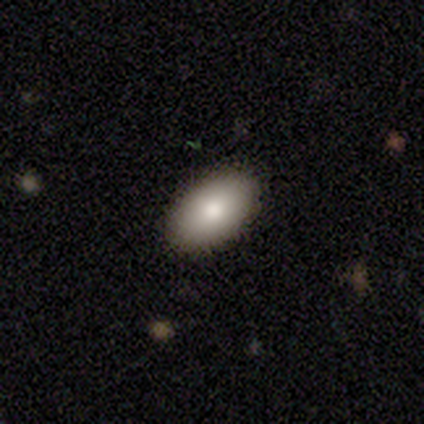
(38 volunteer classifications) smooth 82%, featured or disk 16%, star or artifact 3%. Down the decision tree: how rounded — in between (90%); merging — none (73%).